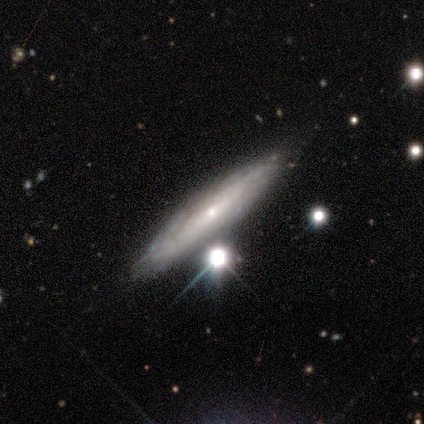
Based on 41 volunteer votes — Overall: featured or disk (78%). Edge-on disk: yes (62%; no 38%). Edge-on bulge: rounded (80%). Merging: none (70%).